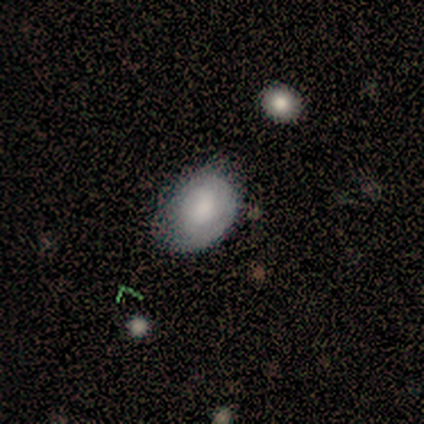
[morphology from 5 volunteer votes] Smooth or featured: smooth — 40% (tied with featured or disk — 40%)
How rounded: in between — 100%
Merging: none — 75% (minor disturbance — 25%)